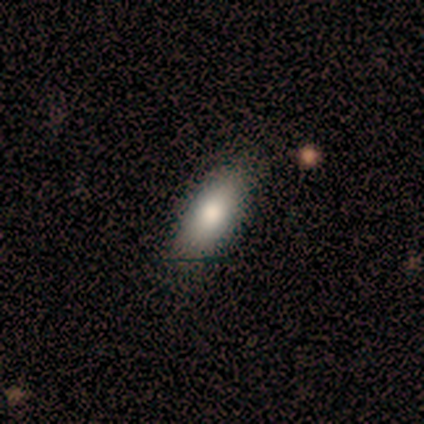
Q: Smooth or featured?
A: smooth (75%); runner-up: featured or disk (25%)
Q: How rounded?
A: in between (67%); runner-up: cigar-shaped (33%)
Q: Merging?
A: none (100%)